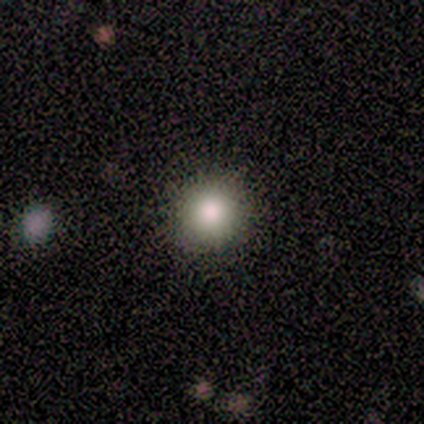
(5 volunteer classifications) A star or artifact, not a galaxy (60%).